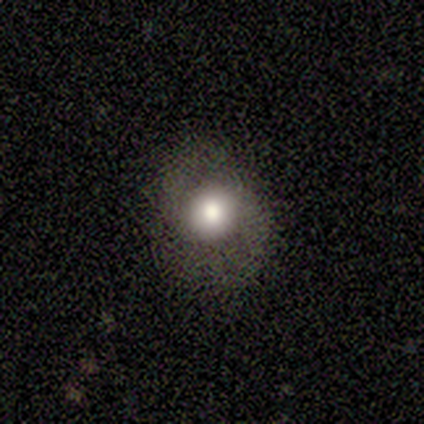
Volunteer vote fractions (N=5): A smooth galaxy with no disk features (60%) that is round (67%).

Vote fractions:
- Smooth or featured? smooth: 60% / featured or disk: 40% / star or artifact: 0%
- How rounded? round: 67% / in between: 33% / cigar-shaped: 0%
- Merging? none: 80% / major disturbance: 20% / minor disturbance: 0% / merger: 0%